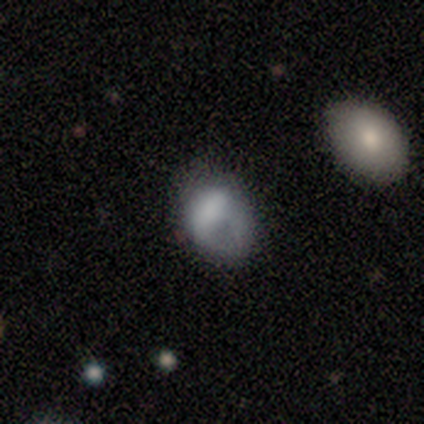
Smooth or featured? featured or disk (50%)
Edge-on disk? no (100%)
Bar? no (80%)
Spiral arms? no (75%)
Bulge size? none (65%)
Merging? none (37%)